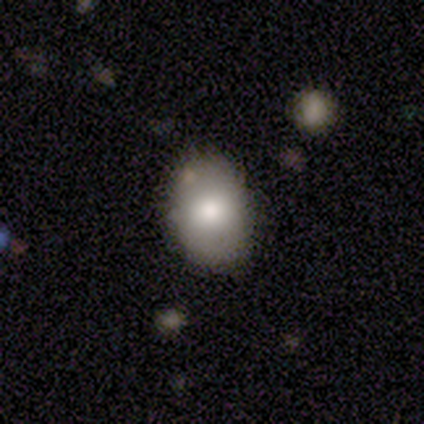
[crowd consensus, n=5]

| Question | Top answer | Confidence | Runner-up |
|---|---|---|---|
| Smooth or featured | smooth | 100% | — |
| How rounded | in between | 100% | — |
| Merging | none | 80% | minor disturbance (20%) |